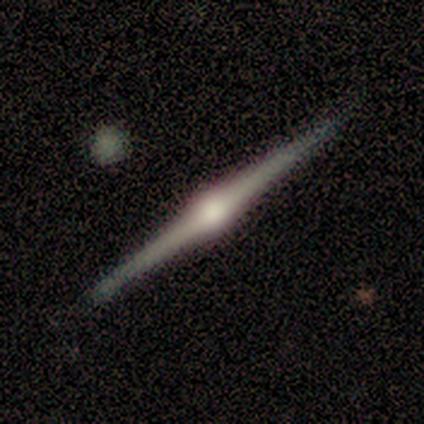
Q: Smooth or featured?
A: featured or disk (75%); runner-up: smooth (25%)
Q: Edge-on disk?
A: yes (100%)
Q: Edge-on bulge?
A: rounded (100%)
Q: Merging?
A: none (75%); runner-up: major disturbance (25%)